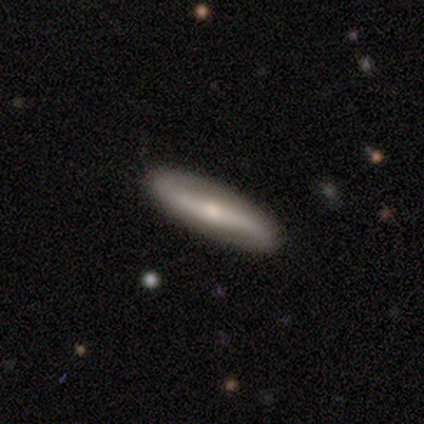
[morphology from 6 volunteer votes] smooth-or-featured: featured or disk: 83% | star or artifact: 17% | smooth: 0%
  disk-edge-on: no: 80% | yes: 20%
    bar: strong: 50% (tied) | weak: 50% (tied) | no: 0%
    has-spiral-arms: yes: 100% | no: 0%
      spiral-winding: loose: 75% | medium: 25% | tight: 0%
      spiral-arm-count: 2: 75% | can't tell: 25% | 1: 0% | 3: 0% | 4: 0% | more than 4: 0%
    bulge-size: small: 100% | dominant: 0% | large: 0% | moderate: 0% | none: 0%
  merging: none: 100% | minor disturbance: 0% | major disturbance: 0% | merger: 0%